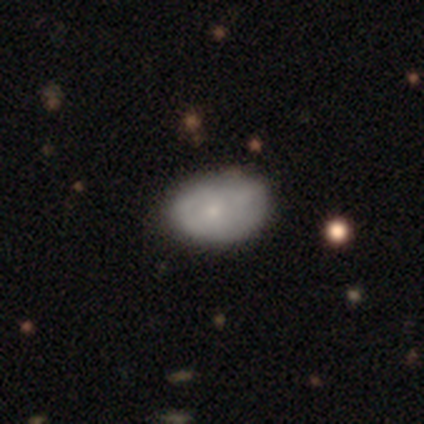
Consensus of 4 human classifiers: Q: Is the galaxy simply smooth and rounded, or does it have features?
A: smooth — 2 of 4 (50%, tied with featured or disk).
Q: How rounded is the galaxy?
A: in between — 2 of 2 (100%).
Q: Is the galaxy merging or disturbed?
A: none — 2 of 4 (50%).